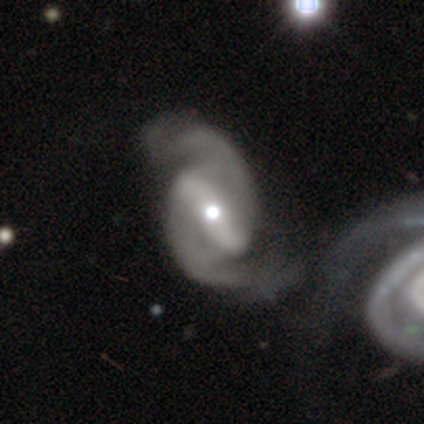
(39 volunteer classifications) Smooth or featured? 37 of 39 (95%) said featured or disk. Edge-on disk? 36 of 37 (97%) said no. Bar? 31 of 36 (86%) said strong. Spiral arms? 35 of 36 (97%) said yes. Spiral winding? 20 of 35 (57%) said medium. Spiral arm count? 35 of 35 (100%) said 2. Bulge size? 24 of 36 (67%) said moderate. Merging? 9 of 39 (23%) said merger.